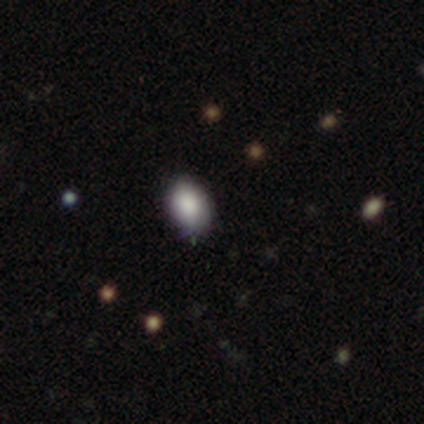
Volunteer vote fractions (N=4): Overall: smooth (75%). How rounded: in between (67%; round 33%). Merging: minor disturbance (67%; none 33%).